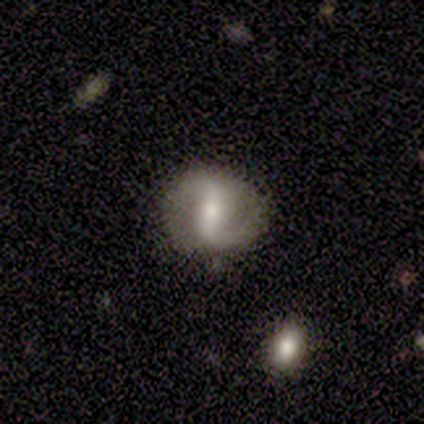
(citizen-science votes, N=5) featured or disk 60%, smooth 40%, star or artifact 0%. Down the decision tree: edge-on disk — no (100%); bar — weak (67%); spiral arms — yes (100%); spiral arm count — 2 (100%); spiral winding — medium (67%); bulge size — small (67%); merging — none (80%).